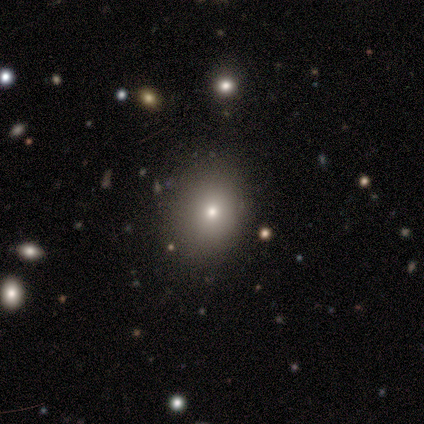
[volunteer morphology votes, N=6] Smooth or featured? smooth (83%)
How rounded? in between (60%)
Merging? none (80%)